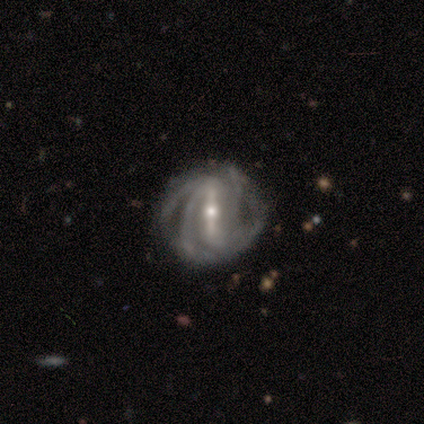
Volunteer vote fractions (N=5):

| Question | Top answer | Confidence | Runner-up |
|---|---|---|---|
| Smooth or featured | featured or disk | 100% | — |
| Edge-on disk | no | 80% | yes (20%) |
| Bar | strong | 75% | weak (25%) |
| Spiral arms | yes | 100% | — |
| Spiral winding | medium | 75% | tight (25%) |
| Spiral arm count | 2 | 25% | tied: 3 (25%), 4 (25%), can't tell (25%) |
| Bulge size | small | 75% | moderate (25%) |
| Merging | none | 60% | minor disturbance (40%) |